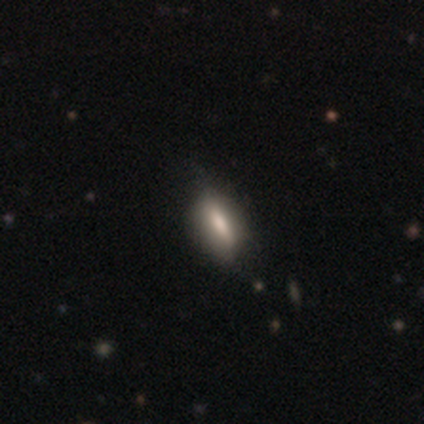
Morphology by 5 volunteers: Smooth or featured? smooth (60%)
How rounded? in between (67%)
Merging? none (80%)